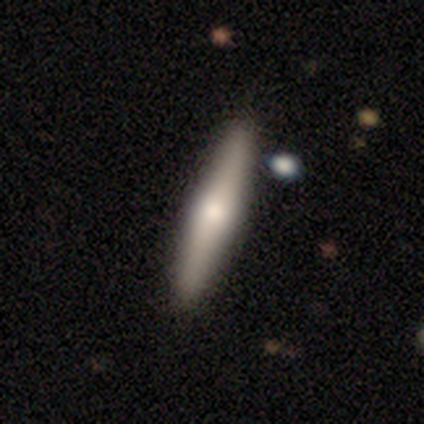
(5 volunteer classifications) A smooth galaxy with no disk features (80%) that is cigar-shaped (75%).

Vote fractions:
- Smooth or featured? smooth: 80% / featured or disk: 20% / star or artifact: 0%
- How rounded? cigar-shaped: 75% / in between: 25% / round: 0%
- Merging? none: 100% / minor disturbance: 0% / major disturbance: 0% / merger: 0%